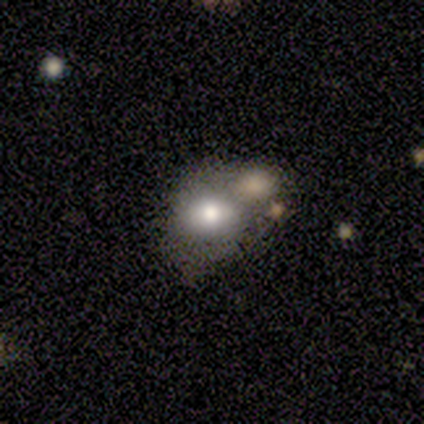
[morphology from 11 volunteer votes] smooth-or-featured: featured or disk: 55% | smooth: 45% | star or artifact: 0%
  disk-edge-on: no: 100% | yes: 0%
    bar: no: 67% | weak: 33% | strong: 0%
    has-spiral-arms: no: 100% | yes: 0%
    bulge-size: moderate: 67% | large: 33% | dominant: 0% | small: 0% | none: 0%
  merging: merger: 55% | none: 18% | minor disturbance: 18% | major disturbance: 9%